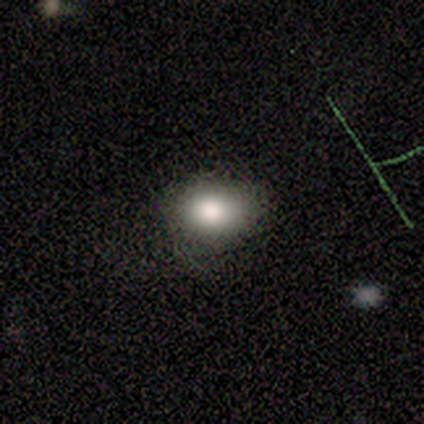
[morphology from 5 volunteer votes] Smooth or featured? smooth (100%)
How rounded? round (60%)
Merging? none (80%)